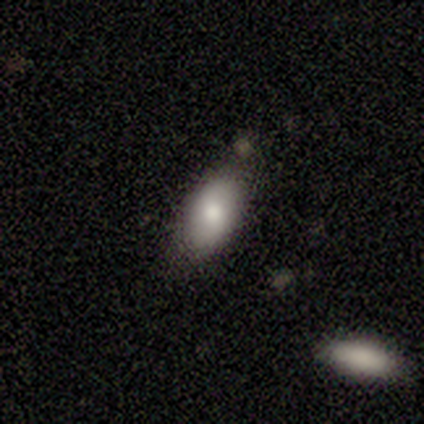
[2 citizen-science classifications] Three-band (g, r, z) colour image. It shows a smooth galaxy with no disk features (50%, tied with star or artifact) that is in between round and cigar-shaped (100%). Merging: none (100%).